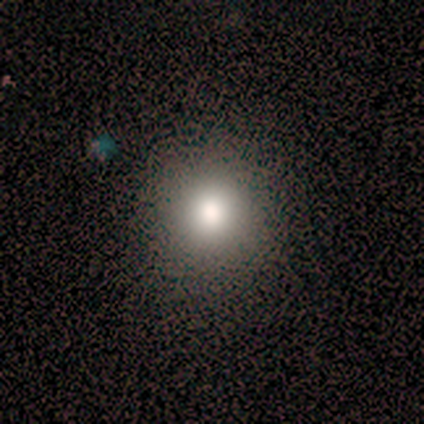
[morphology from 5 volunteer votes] type=smooth (40%, tied with featured or disk); roundness=round (100%); merging=none (75%).